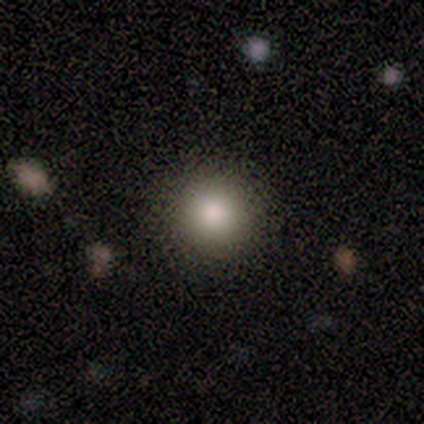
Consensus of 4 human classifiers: smooth-or-featured: smooth: 75% | star or artifact: 25% | featured or disk: 0%
  how-rounded: round: 100% | in between: 0% | cigar-shaped: 0%
  merging: none: 100% | minor disturbance: 0% | major disturbance: 0% | merger: 0%